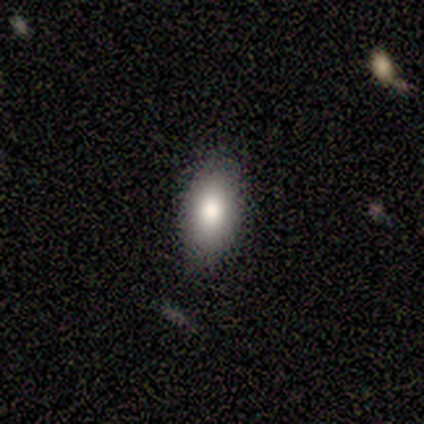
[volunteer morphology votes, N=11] smooth-or-featured: smooth: 73% | featured or disk: 27% | star or artifact: 0%
  how-rounded: in between: 88% | cigar-shaped: 12% | round: 0%
  merging: none: 73% | minor disturbance: 27% | major disturbance: 0% | merger: 0%